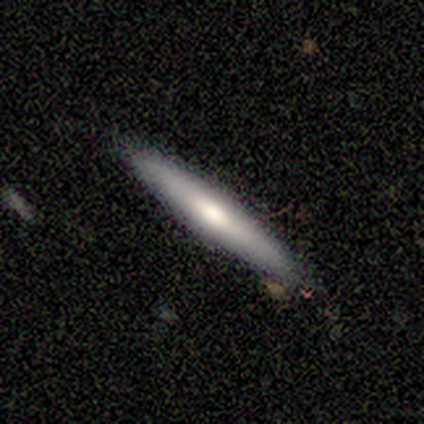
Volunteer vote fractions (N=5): A smooth galaxy with no disk features (40%, tied with featured or disk) that is cigar-shaped (100%). Merging: none (100%).